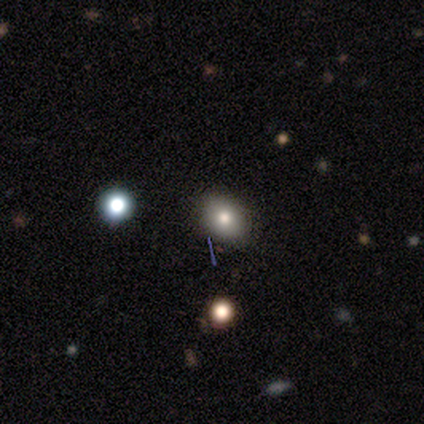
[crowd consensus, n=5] smooth 40% (tied), featured or disk 40% (tied), star or artifact 20%. Down the decision tree: how rounded — in between (100%); merging — none (100%).